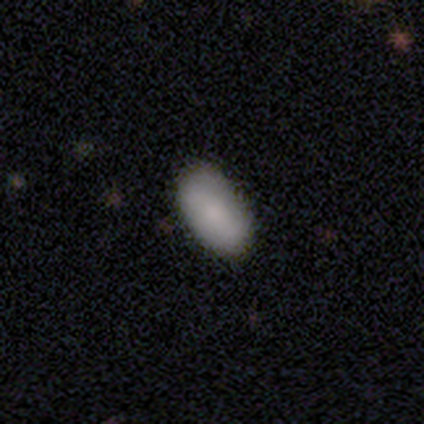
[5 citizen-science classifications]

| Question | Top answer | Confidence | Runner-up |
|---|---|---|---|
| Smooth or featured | smooth | 100% | — |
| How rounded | in between | 100% | — |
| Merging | none | 100% | — |